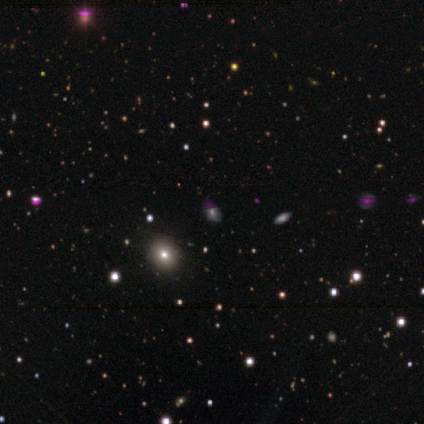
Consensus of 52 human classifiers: This appears to be a star or artifact, not a galaxy (44%).